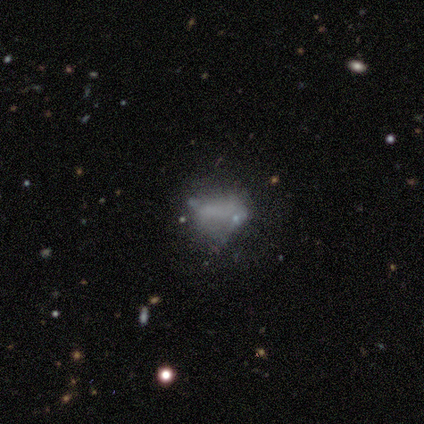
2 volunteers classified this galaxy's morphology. Overall: smooth (50%, tied with star or artifact). How rounded: in between (100%). Merging: none (100%).